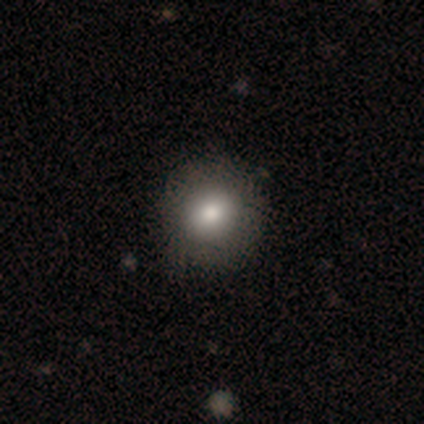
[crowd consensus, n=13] Smooth or featured: smooth — 92% (star or artifact — 8%)
How rounded: round — 83% (in between — 17%)
Merging: none — 100%